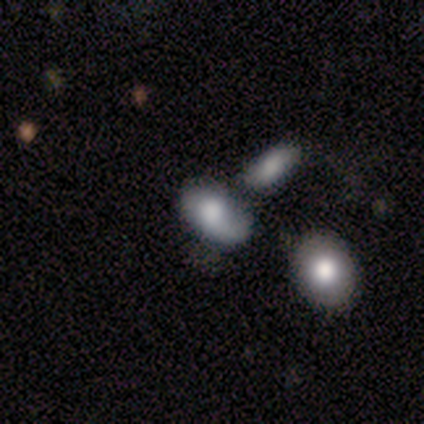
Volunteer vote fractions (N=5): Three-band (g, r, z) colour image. It shows a smooth galaxy with no disk features (60%) that is in between round and cigar-shaped (100%). Merging: minor disturbance (60%).